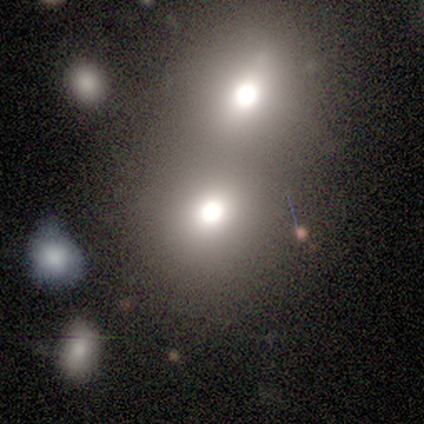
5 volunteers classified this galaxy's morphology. This is clearly a smooth galaxy (80%). How rounded: likely round (75%). Merging: clearly none (80%).